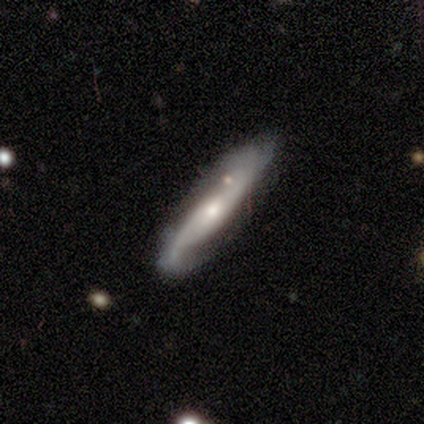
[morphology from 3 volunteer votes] featured or disk 100%, smooth 0%, star or artifact 0%. Down the decision tree: edge-on disk — yes (67%); edge-on bulge — none (50%, tied with rounded); merging — none (67%).